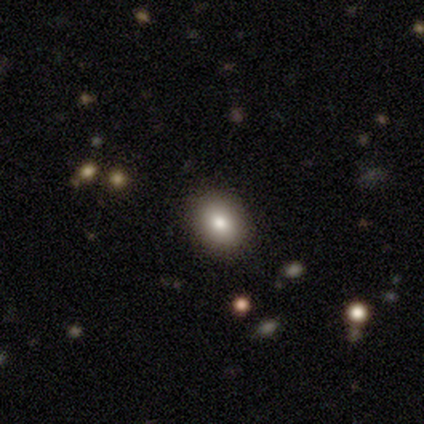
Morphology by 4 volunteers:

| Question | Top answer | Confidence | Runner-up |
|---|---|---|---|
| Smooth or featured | smooth | 100% | — |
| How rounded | round | 75% | in between (25%) |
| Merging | none | 75% | minor disturbance (25%) |